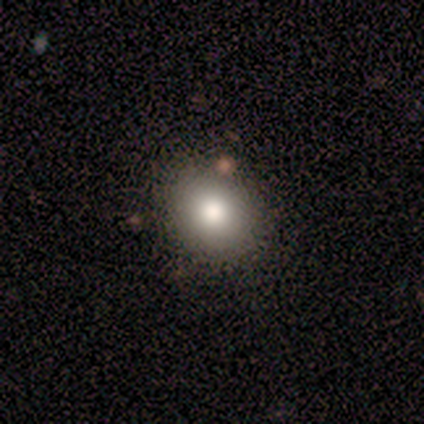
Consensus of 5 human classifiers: A smooth galaxy with no disk features (80%) that is round (50%, tied with in between). Merging: none (100%).